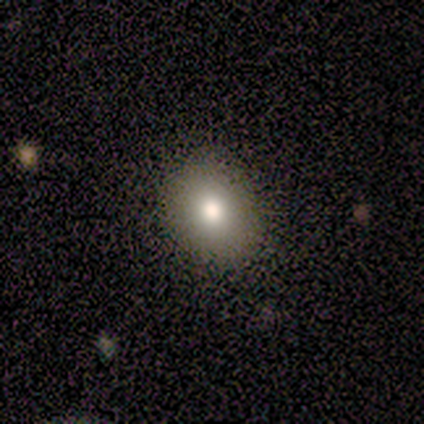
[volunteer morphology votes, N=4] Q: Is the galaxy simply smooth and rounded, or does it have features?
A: smooth — 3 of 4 (75%).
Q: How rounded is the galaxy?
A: round — 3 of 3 (100%).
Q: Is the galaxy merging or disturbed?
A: none — 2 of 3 (67%).